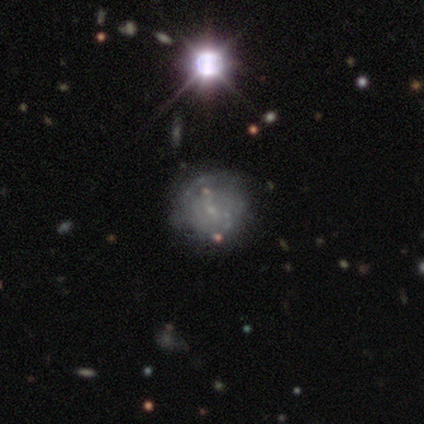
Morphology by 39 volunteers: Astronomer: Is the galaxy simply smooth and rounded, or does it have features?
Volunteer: featured or disk — 67%.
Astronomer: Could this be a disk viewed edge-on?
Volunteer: no — 100%.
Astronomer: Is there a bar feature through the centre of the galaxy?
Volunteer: no — 69%.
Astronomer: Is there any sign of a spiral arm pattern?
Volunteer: yes — 58% (runner-up: no, 42%).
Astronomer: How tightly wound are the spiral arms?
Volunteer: tight — 47% (runner-up: medium, 33%).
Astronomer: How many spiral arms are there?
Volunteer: can't tell — 73%.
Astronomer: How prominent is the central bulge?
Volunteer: small — 73%.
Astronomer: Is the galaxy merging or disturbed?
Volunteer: none — 24% (runner-up: major disturbance, 15%).